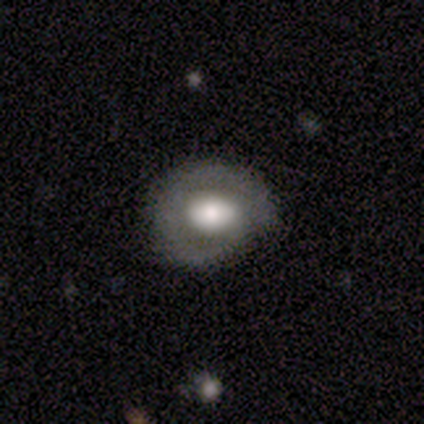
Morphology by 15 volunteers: A featured or disk galaxy (60%) with no bar (62%), 2 (50%) tight (75%) spiral arms (50%, tied with no) and a moderate central bulge (62%).

Vote fractions:
- Smooth or featured? featured or disk: 60% / smooth: 40% / star or artifact: 0%
- Edge-on disk? no: 89% / yes: 11%
- Bar? no: 62% / weak: 25% / strong: 12%
- Spiral arms? yes: 50% (tied) / no: 50% (tied)
- Spiral winding? tight: 75% / medium: 25% / loose: 0%
- Spiral arm count? 2: 50% / 1: 25% / can't tell: 25% / 3: 0% / 4: 0% / more than 4: 0%
- Bulge size? moderate: 62% / large: 25% / dominant: 12% / small: 0% / none: 0%
- Merging? none: 60% / minor disturbance: 33% / major disturbance: 7% / merger: 0%